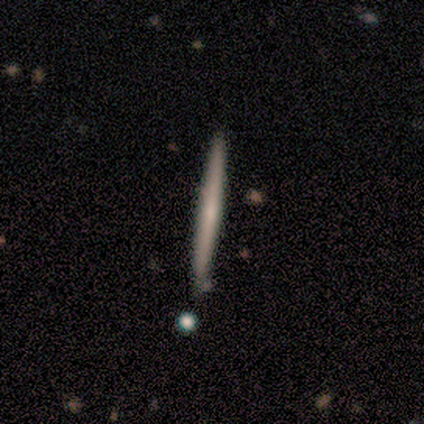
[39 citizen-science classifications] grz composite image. It shows a smooth galaxy with no disk features (51%) that is cigar-shaped (100%). Merging: none (92%).